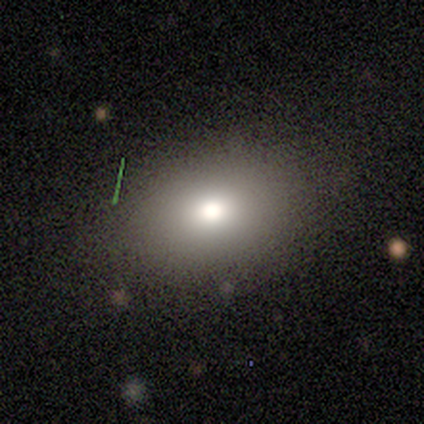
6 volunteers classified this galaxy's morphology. type=smooth (83%); roundness=in between (80%); merging=none (80%).